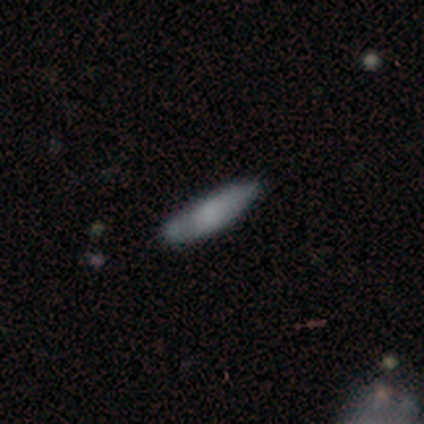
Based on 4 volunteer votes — Overall: smooth (75%). How rounded: in between (67%; cigar-shaped 33%). Merging: none (50%, tied with minor disturbance).